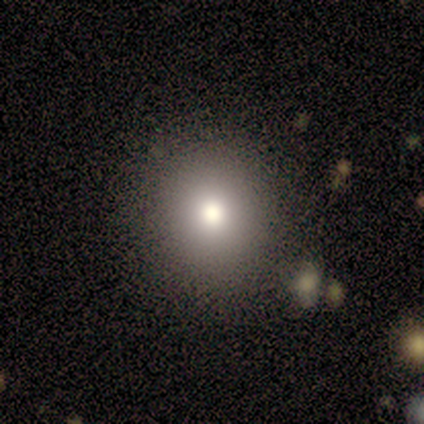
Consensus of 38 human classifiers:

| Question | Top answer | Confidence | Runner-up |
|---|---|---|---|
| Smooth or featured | smooth | 79% | star or artifact (13%) |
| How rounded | round | 83% | in between (17%) |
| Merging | none | 85% | major disturbance (6%) |